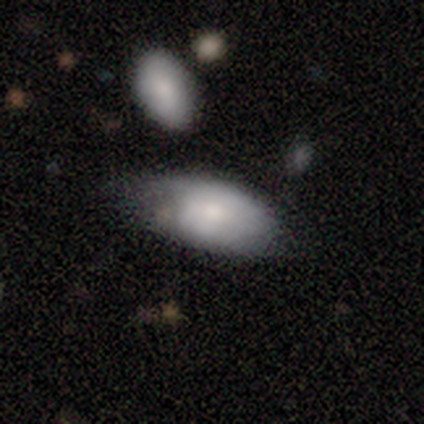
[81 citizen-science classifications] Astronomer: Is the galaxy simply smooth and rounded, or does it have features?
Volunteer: smooth — 70%.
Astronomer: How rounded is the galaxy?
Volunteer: in between — 96%.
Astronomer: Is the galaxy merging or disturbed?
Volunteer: none — 46% (runner-up: minor disturbance, 36%).